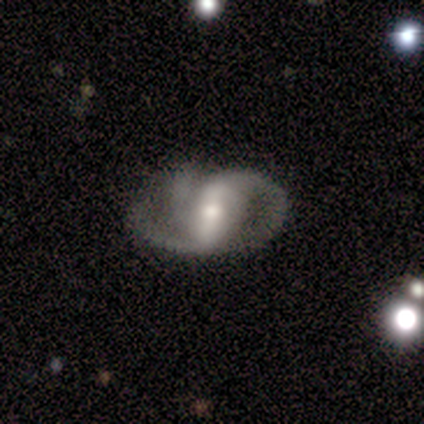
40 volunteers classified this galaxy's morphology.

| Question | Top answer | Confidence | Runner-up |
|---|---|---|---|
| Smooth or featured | featured or disk | 85% | smooth (12%) |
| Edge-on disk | no | 94% | yes (6%) |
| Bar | strong | 72% | weak (25%) |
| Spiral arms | yes | 94% | no (6%) |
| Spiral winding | medium | 40% | tight (30%) |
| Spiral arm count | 2 | 70% | 3 (27%) |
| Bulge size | moderate | 56% | small (25%) |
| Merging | none | 54% | minor disturbance (26%) |